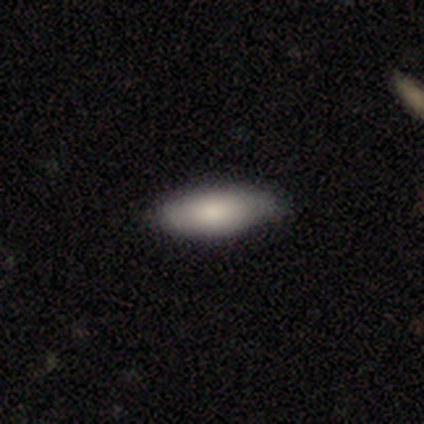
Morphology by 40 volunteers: Smooth or featured: smooth — 80% (featured or disk — 12%)
How rounded: in between — 66% (cigar-shaped — 34%)
Merging: none — 78% (minor disturbance — 19%)